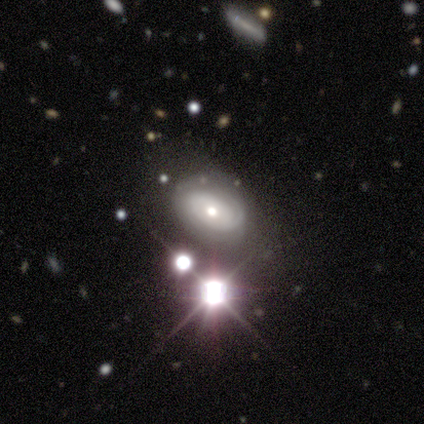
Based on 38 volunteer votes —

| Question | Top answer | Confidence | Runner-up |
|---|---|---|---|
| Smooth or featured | featured or disk | 39% | smooth (32%) |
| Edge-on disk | no | 100% | — |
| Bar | no | 87% | weak (13%) |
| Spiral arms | yes | 73% | no (27%) |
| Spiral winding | tight | 64% | medium (18%) |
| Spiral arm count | can't tell | 82% | 2 (18%) |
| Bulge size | moderate | 80% | small (13%) |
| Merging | none | 81% | minor disturbance (11%) |